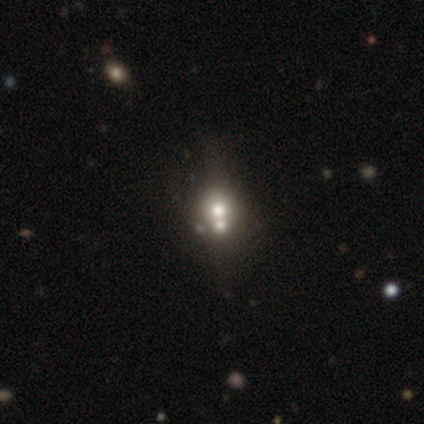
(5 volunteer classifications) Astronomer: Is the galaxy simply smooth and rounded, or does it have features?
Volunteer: smooth — 40%, tied with star or artifact at 40%.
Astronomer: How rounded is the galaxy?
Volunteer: round — 50%, tied with in between at 50%.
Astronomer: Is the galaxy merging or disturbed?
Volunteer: merger — 67%.